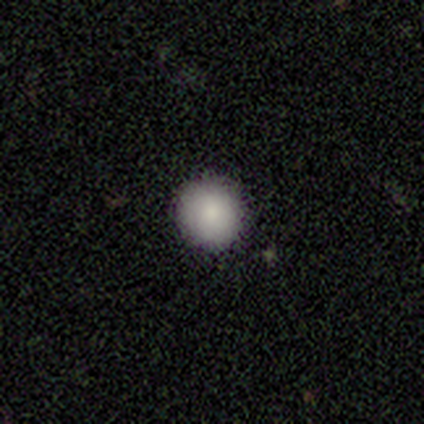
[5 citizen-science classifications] Smooth or featured?
  - smooth: 60% *
  - featured or disk: 20%
  - star or artifact: 20%
How rounded?
  - round: 100% *
  - in between: 0%
  - cigar-shaped: 0%
Merging?
  - none: 100% *
  - minor disturbance: 0%
  - major disturbance: 0%
  - merger: 0%